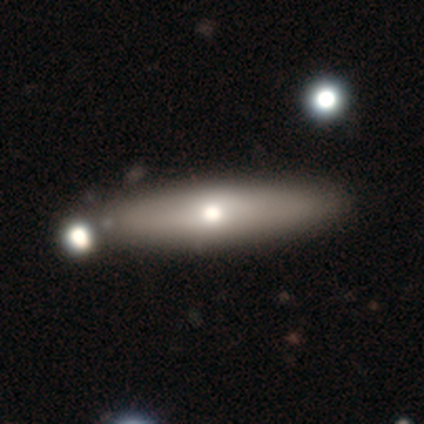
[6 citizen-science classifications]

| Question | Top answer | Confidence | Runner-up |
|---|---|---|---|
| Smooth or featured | smooth | 67% | featured or disk (33%) |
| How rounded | cigar-shaped | 100% | — |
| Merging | none | 100% | — |